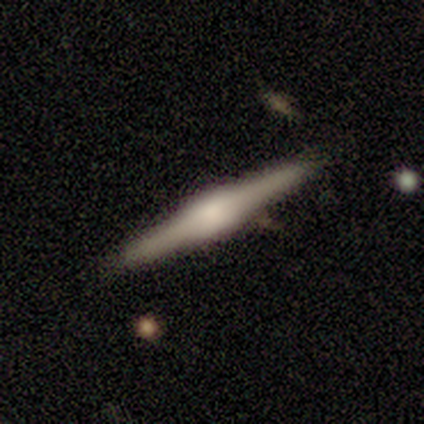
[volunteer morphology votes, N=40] A featured or disk galaxy (78%) viewed edge-on (97%) with a boxy central bulge (53%). Merging: none (89%).